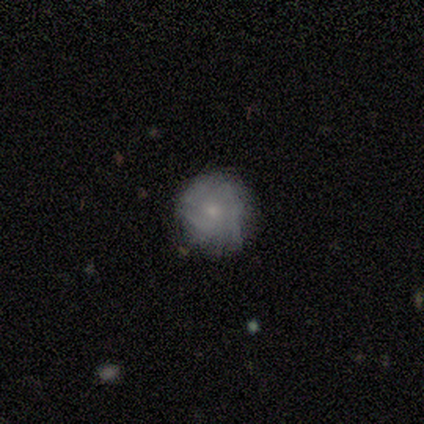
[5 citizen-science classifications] Q: Smooth or featured?
A: smooth (60%); runner-up: featured or disk (40%)
Q: How rounded?
A: round (100%)
Q: Merging?
A: none (100%)